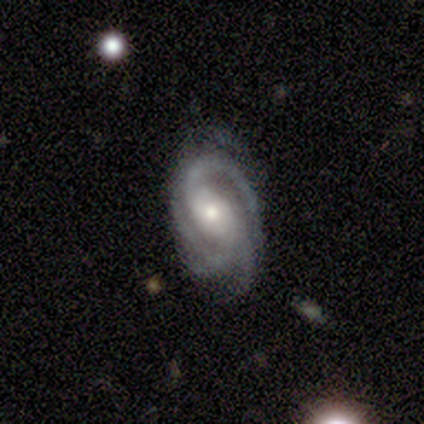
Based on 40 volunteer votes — A featured or disk galaxy (90%) with no bar (50%), 3 (61%) tight (53%) spiral arms (100%) and a moderate central bulge (53%).

Vote fractions:
- Smooth or featured? featured or disk: 90% / smooth: 5% / star or artifact: 5%
- Edge-on disk? no: 100% / yes: 0%
- Bar? no: 50% / weak: 28% / strong: 22%
- Spiral arms? yes: 100% / no: 0%
- Spiral winding? tight: 53% / medium: 39% / loose: 8%
- Spiral arm count? 3: 61% / 4: 14% / 2: 11% / can't tell: 11% / more than 4: 3% / 1: 0%
- Bulge size? moderate: 53% / small: 36% / large: 11% / dominant: 0% / none: 0%
- Merging? none: 76% / minor disturbance: 21% / major disturbance: 3% / merger: 0%